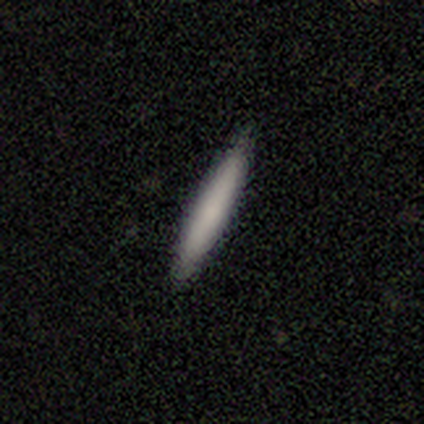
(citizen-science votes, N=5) Morphology: type=smooth (80%); roundness=cigar-shaped (100%); merging=none (80%).